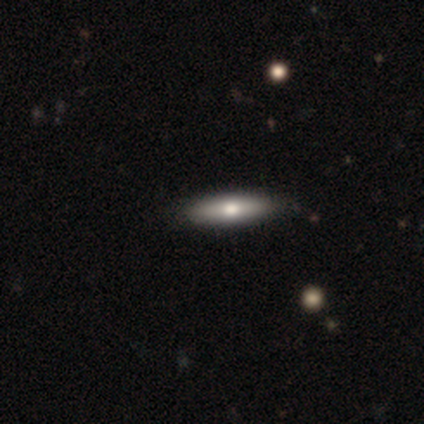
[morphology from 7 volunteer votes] Volunteers were most divided on "how rounded" (2-way tie): in between: 50%, cigar-shaped: 50%, round: 0%. More confident: merging — none (100%); smooth or featured — smooth (57%).